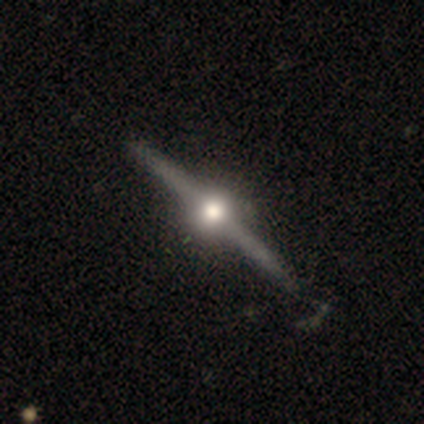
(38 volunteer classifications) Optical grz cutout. It shows a featured or disk galaxy (95%) viewed edge-on (100%) with a rounded central bulge (97%). Merging: none (47%).